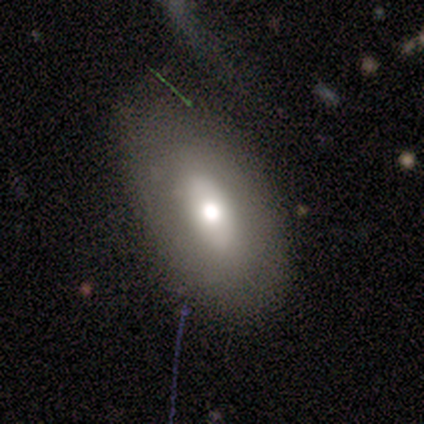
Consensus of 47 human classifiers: A smooth galaxy with no disk features (72%) that is in between round and cigar-shaped (94%). Merging: none (73%).